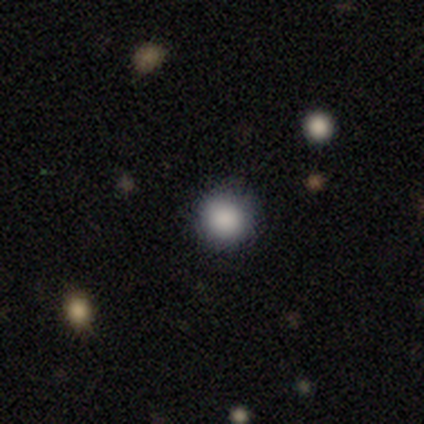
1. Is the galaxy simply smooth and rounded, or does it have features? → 80% smooth, 20% star or artifact, 0% featured or disk.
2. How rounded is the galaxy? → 100% round, 0% in between, 0% cigar-shaped.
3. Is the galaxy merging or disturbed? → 100% none, 0% minor disturbance, 0% major disturbance, 0% merger.